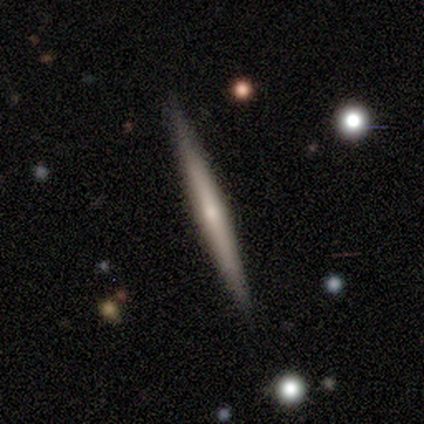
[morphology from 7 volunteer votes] A featured or disk galaxy (100%) viewed edge-on (100%) with a rounded central bulge (57%). Merging: none (100%).